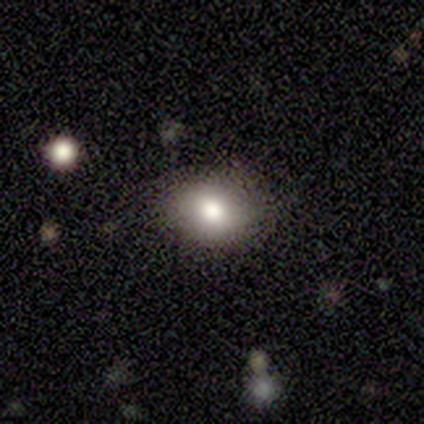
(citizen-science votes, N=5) This is clearly a smooth galaxy (80%). How rounded: likely round (75%). Merging: clearly none (100%).